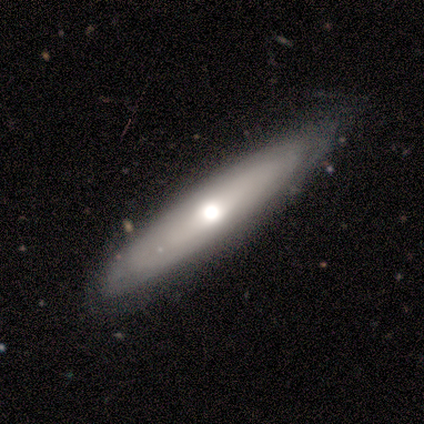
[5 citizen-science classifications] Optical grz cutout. It shows a smooth galaxy with no disk features (40%, tied with featured or disk) that is round (50%, tied with cigar-shaped). Merging: none (75%).